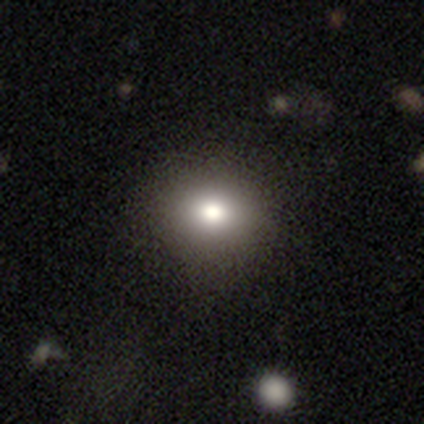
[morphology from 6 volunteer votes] Volunteers were most divided on "merging": none: 83%, minor disturbance: 17%, major disturbance: 0%, merger: 0%. More confident: smooth or featured — smooth (100%); how rounded — round (100%).